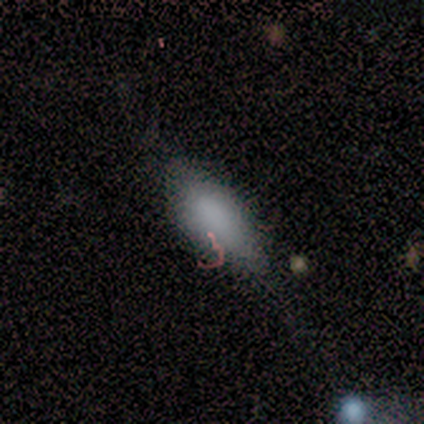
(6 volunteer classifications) Morphology: type=smooth (100%); roundness=in between (100%); merging=minor disturbance (50%).